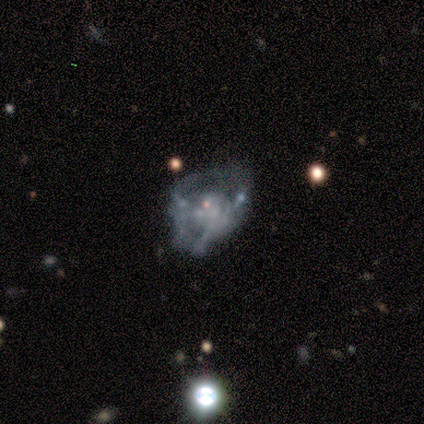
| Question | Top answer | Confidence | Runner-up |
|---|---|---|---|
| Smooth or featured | featured or disk | 100% | — |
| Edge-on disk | no | 100% | — |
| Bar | no | 80% | weak (20%) |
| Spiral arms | no | 80% | yes (20%) |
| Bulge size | none | 80% | small (20%) |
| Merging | major disturbance | 40% | none (20%) |